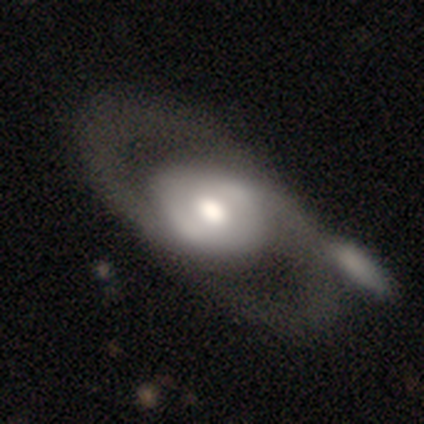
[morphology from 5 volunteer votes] smooth_or_featured: featured or disk (p=0.80) [alt: smooth p=0.20]
disk_edge_on: no (p=0.75) [alt: yes p=0.25]
bar: strong (p=0.33) [tied with: weak p=0.33, no p=0.33]
has_spiral_arms: yes (p=0.67) [alt: no p=0.33]
spiral_winding: tight (p=0.50) [tied with: loose p=0.50]
spiral_arm_count: 1 (p=0.50) [tied with: 2 p=0.50]
bulge_size: large (p=0.67) [alt: small p=0.33]
merging: none (p=0.80) [alt: minor disturbance p=0.20]